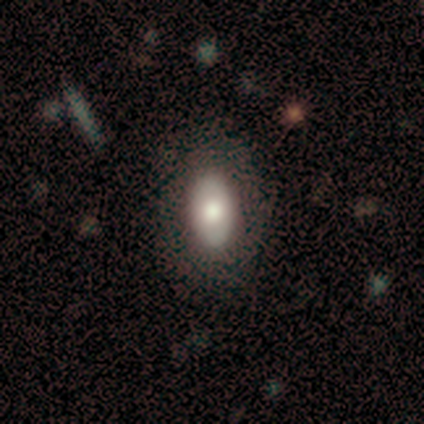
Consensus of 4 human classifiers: Smooth or featured: smooth — 50% (featured or disk — 25%)
How rounded: in between — 100%
Merging: none — 67% (minor disturbance — 33%)